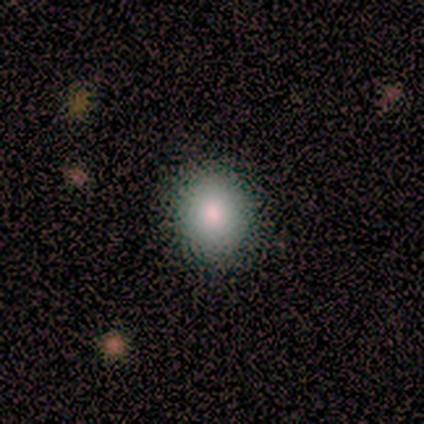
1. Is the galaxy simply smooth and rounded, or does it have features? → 86% smooth, 14% featured or disk, 0% star or artifact.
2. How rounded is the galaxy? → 83% round, 17% in between, 0% cigar-shaped.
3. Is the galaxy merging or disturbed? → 71% none, 29% minor disturbance, 0% major disturbance, 0% merger.